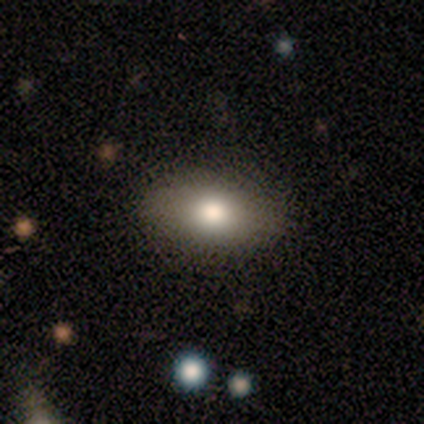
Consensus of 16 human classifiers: Smooth or featured? 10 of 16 (62%) said smooth. How rounded? 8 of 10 (80%) said in between. Merging? 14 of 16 (88%) said none.